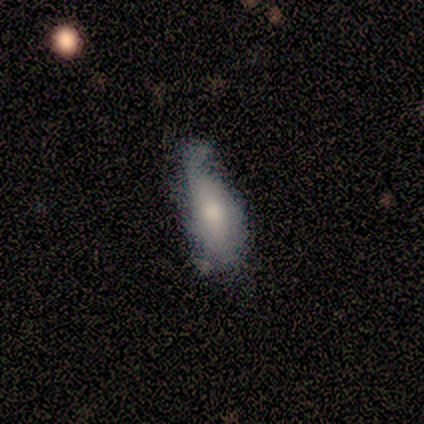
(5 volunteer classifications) smooth_or_featured: featured or disk (p=0.60) [alt: smooth p=0.40]
disk_edge_on: yes (p=0.67) [alt: no p=0.33]
edge_on_bulge: boxy (p=0.50) [tied with: rounded p=0.50]
merging: minor disturbance (p=0.40) [tied with: major disturbance p=0.40]